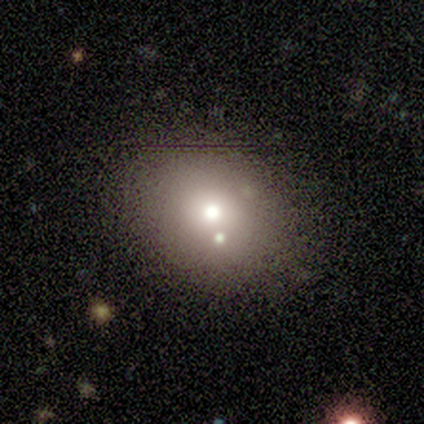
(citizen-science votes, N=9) Q: Smooth or featured?
A: smooth (44%); runner-up: star or artifact (33%)
Q: How rounded?
A: round (50%); tied with: in between (50%)
Q: Merging?
A: none (67%); runner-up: minor disturbance (33%)